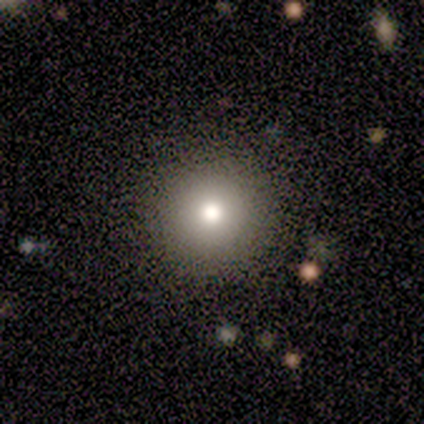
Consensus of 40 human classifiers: This appears to be a smooth galaxy with no disk features (62%) that is round (100%). Merging: none (90%).